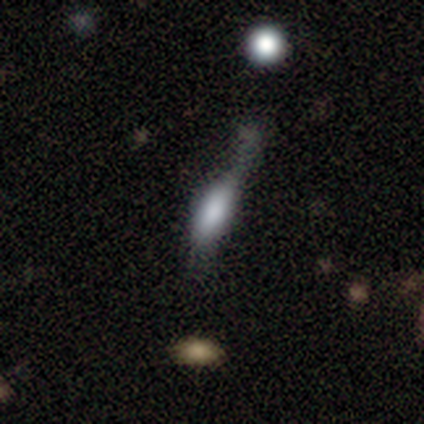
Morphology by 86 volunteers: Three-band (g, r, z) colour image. It shows a smooth galaxy with no disk features (60%) that is in between round and cigar-shaped (50%). Merging: minor disturbance (41%).